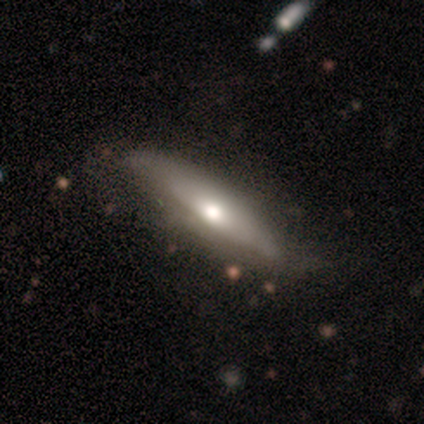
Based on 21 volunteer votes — smooth-or-featured: featured or disk: 57% | smooth: 38% | star or artifact: 5%
  disk-edge-on: yes: 67% | no: 33%
    edge-on-bulge: rounded: 100% | boxy: 0% | none: 0%
  merging: none: 60% | minor disturbance: 35% | merger: 5% | major disturbance: 0%